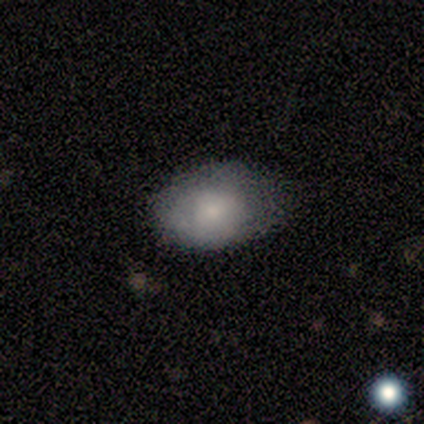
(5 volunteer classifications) smooth 80%, featured or disk 20%, star or artifact 0%. Down the decision tree: how rounded — in between (100%); merging — none (60%).